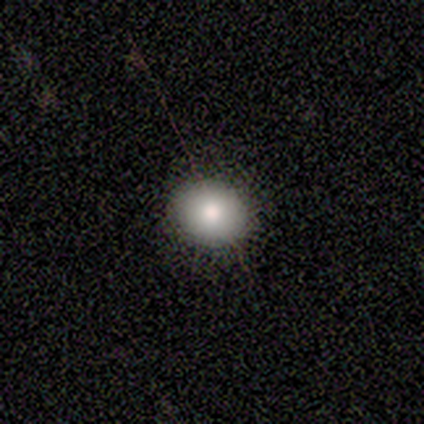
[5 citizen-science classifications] Smooth or featured?
  - smooth: 60% *
  - star or artifact: 40%
  - featured or disk: 0%
How rounded?
  - round: 100% *
  - in between: 0%
  - cigar-shaped: 0%
Merging?
  - none: 100% *
  - minor disturbance: 0%
  - major disturbance: 0%
  - merger: 0%